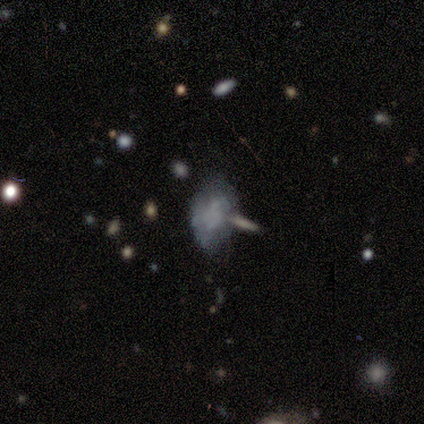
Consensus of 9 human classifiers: smooth-or-featured: smooth: 89% | featured or disk: 11% | star or artifact: 0%
  how-rounded: in between: 75% | round: 25% | cigar-shaped: 0%
  merging: none: 56% | minor disturbance: 22% | merger: 22% | major disturbance: 0%